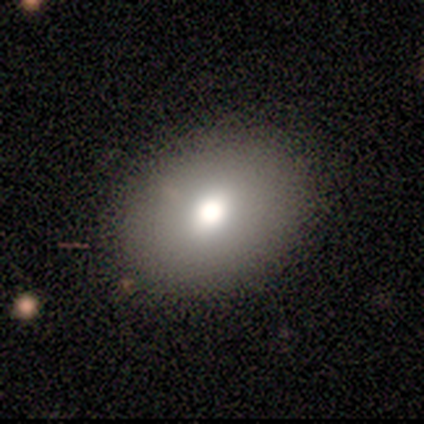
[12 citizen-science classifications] Smooth or featured? 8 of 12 (67%) said smooth. How rounded? 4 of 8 (50%, tied with in between) said round. Merging? 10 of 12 (83%) said none.